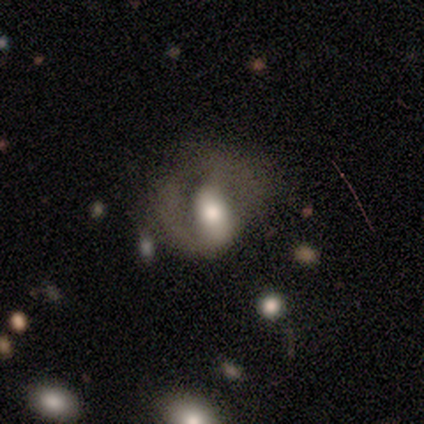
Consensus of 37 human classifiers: Smooth or featured?
  - featured or disk: 59% *
  - smooth: 22%
  - star or artifact: 19%
Edge-on disk?
  - no: 95% *
  - yes: 5%
Bar?
  - strong: 33% * (tied)
  - weak: 33% * (tied)
  - no: 33% * (tied)
Spiral arms?
  - yes: 67% *
  - no: 33%
Spiral winding?
  - loose: 43% *
  - medium: 36%
  - tight: 21%
Spiral arm count?
  - 1: 57% *
  - 2: 43%
  - 3: 0%
  - 4: 0%
  - more than 4: 0%
  - can't tell: 0%
Bulge size?
  - moderate: 57% *
  - large: 24%
  - small: 10%
  - dominant: 5%
  - none: 5%
Merging?
  - major disturbance: 60% *
  - none: 30%
  - minor disturbance: 7%
  - merger: 3%